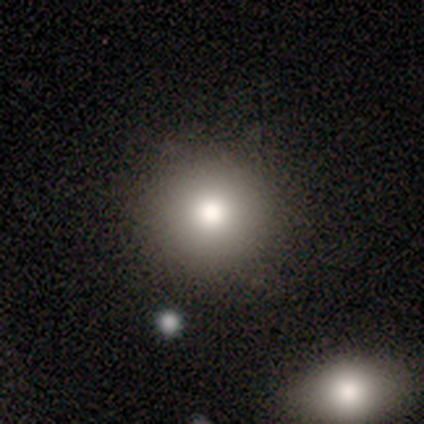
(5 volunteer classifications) Overall: smooth (60%; featured or disk 20%). How rounded: round (100%). Merging: none (75%).